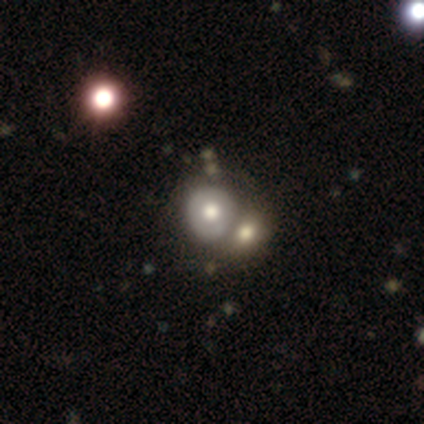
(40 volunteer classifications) Smooth or featured: smooth — 75% (featured or disk — 18%)
How rounded: round — 80% (in between — 20%)
Merging: merger — 62% (none — 16%)